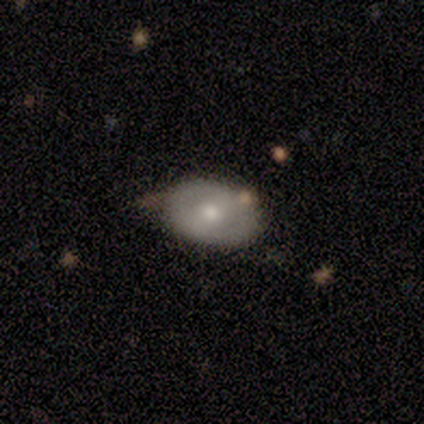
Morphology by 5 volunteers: Smooth or featured? smooth (80%)
How rounded? in between (100%)
Merging? none (80%)